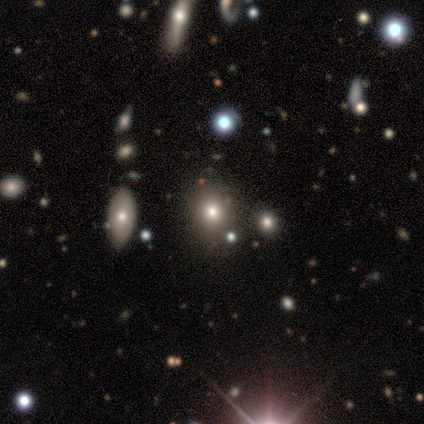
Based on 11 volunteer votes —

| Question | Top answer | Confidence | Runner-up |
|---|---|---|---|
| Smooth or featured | smooth | 55% | star or artifact (36%) |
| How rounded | in between | 67% | round (33%) |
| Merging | none | 57% | minor disturbance (14%) |